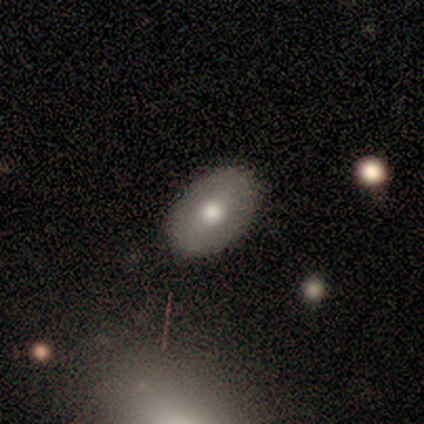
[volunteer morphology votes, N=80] Volunteers were most divided on "merging": none: 46%, minor disturbance: 3%, major disturbance: 1%, merger: 0%. More confident: how rounded — in between (95%); smooth or featured — smooth (74%).